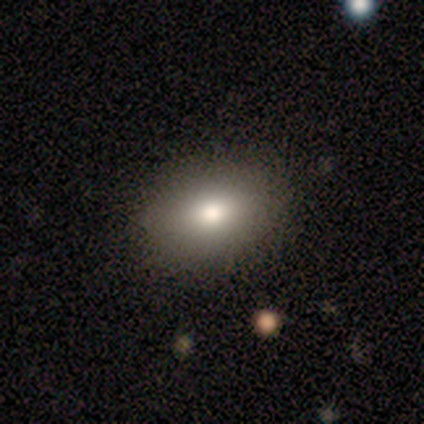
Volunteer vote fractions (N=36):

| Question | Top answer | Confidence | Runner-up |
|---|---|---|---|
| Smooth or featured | smooth | 78% | featured or disk (11%) |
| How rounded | in between | 68% | round (32%) |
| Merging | none | 91% | minor disturbance (9%) |